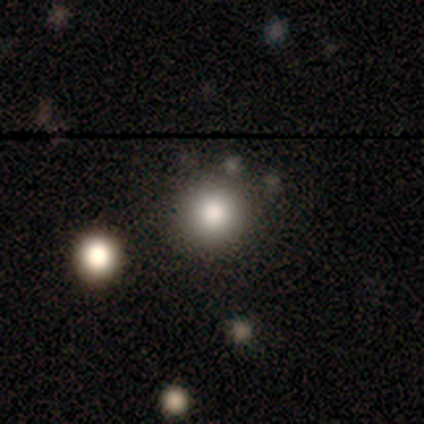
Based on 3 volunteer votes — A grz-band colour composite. It shows a smooth galaxy with no disk features (100%) that is round (100%). Merging: none (33%, tied with minor disturbance and merger).